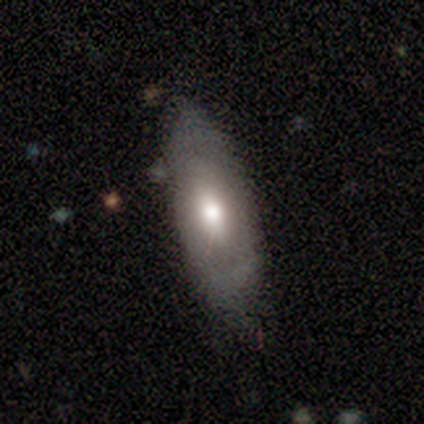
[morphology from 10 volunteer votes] Smooth or featured? smooth (60%)
How rounded? in between (100%)
Merging? none (67%)